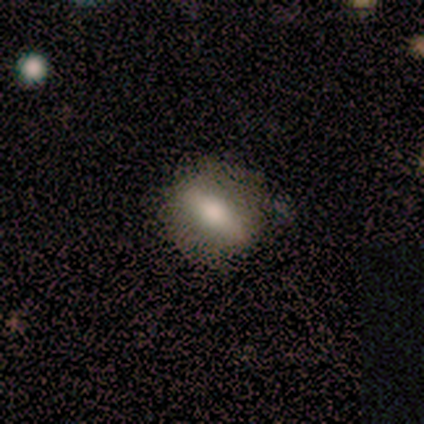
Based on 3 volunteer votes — smooth_or_featured: smooth (p=0.33) [tied with: featured or disk p=0.33, star or artifact p=0.33]
how_rounded: round (p=1.00)
merging: none (p=1.00)